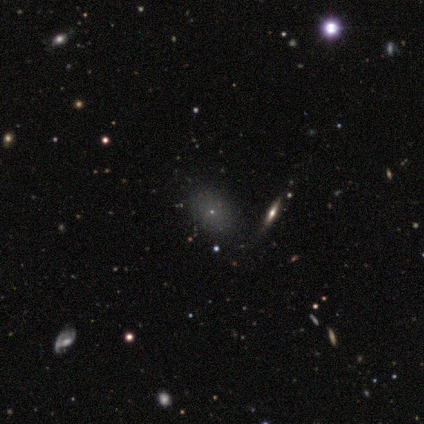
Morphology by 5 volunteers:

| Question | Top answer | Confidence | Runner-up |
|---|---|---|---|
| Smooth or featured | smooth | 60% | star or artifact (40%) |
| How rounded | in between | 67% | round (33%) |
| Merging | none | 100% | — |